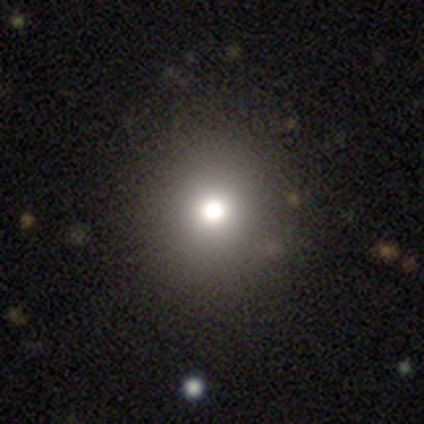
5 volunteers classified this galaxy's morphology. Smooth or featured? 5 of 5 (100%) said smooth. How rounded? 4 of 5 (80%) said round. Merging? 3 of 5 (60%) said none.